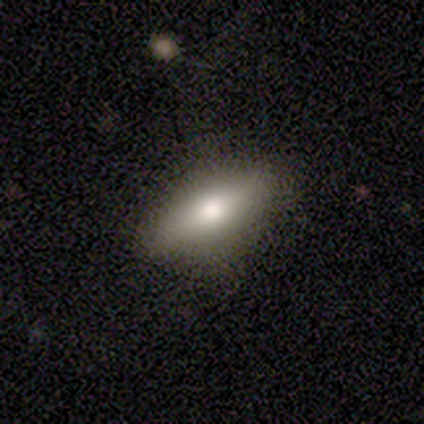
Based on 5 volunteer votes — Smooth or featured? smooth (60%)
How rounded? cigar-shaped (67%)
Merging? none (100%)